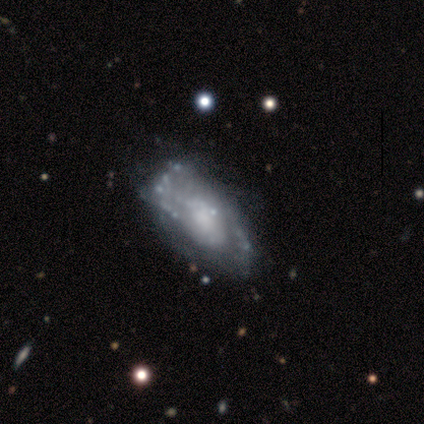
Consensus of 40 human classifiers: smooth-or-featured: featured or disk: 82% | smooth: 18% | star or artifact: 0%
  disk-edge-on: no: 97% | yes: 3%
    bar: no: 81% | weak: 16% | strong: 3%
    has-spiral-arms: yes: 72% | no: 28%
      spiral-winding: medium: 57% | loose: 35% | tight: 9%
      spiral-arm-count: 2: 70% | can't tell: 22% | 3: 9% | 1: 0% | 4: 0% | more than 4: 0%
    bulge-size: moderate: 34% | small: 31% | none: 22% | dominant: 6% | large: 6%
  merging: none: 38% | minor disturbance: 20% | major disturbance: 12% | merger: 5%